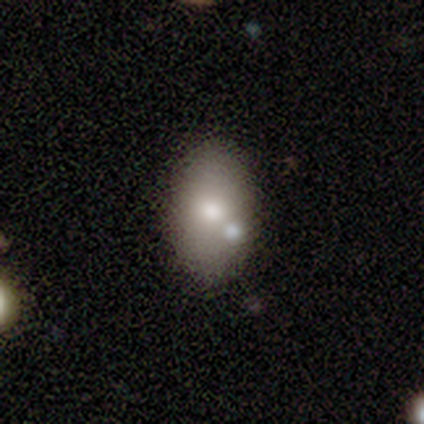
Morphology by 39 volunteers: Q: Smooth or featured?
A: smooth (74%); runner-up: featured or disk (26%)
Q: How rounded?
A: in between (79%); runner-up: round (21%)
Q: Merging?
A: none (64%); runner-up: merger (18%)